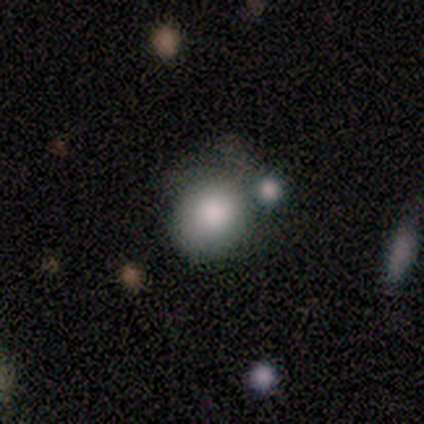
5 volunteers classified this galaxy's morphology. A smooth galaxy with no disk features (60%) that is round (100%). Merging: minor disturbance (50%).